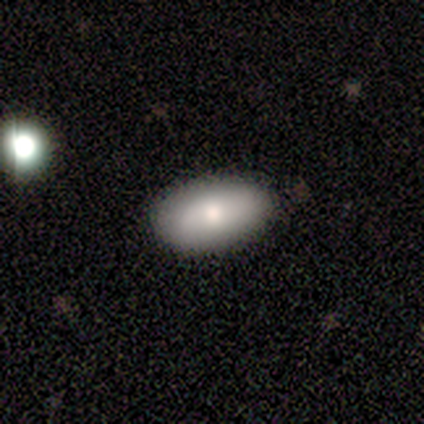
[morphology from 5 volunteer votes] Overall: smooth (60%; featured or disk 40%). How rounded: in between (100%). Merging: none (80%).